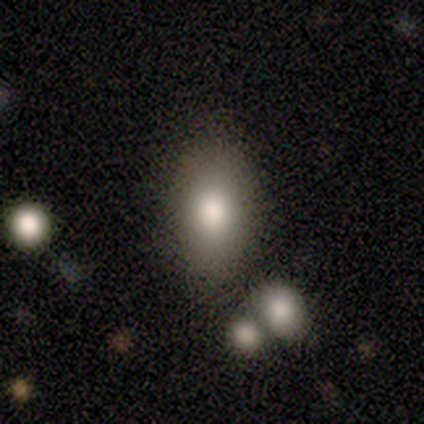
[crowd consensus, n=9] Morphology: type=smooth (67%); roundness=in between (100%); merging=none (75%).